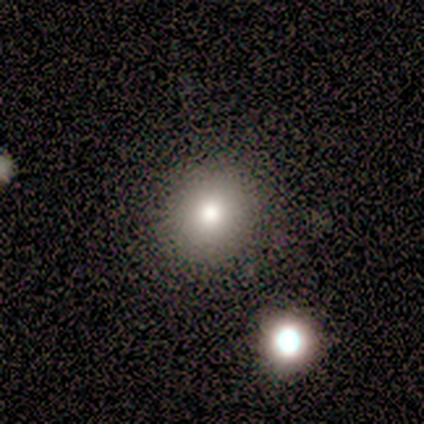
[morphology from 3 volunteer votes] Volunteers were most divided on "how rounded" (2-way tie): round: 50%, in between: 50%, cigar-shaped: 0%; "merging" (2-way tie): none: 50%, minor disturbance: 50%, major disturbance: 0%, merger: 0%. More confident: smooth or featured — smooth (67%).